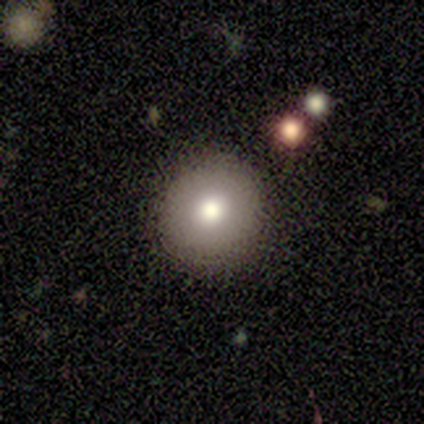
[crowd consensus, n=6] Volunteers were most divided on "merging": none: 67%, minor disturbance: 17%, merger: 17%, major disturbance: 0%. More confident: smooth or featured — smooth (100%); how rounded — round (100%).